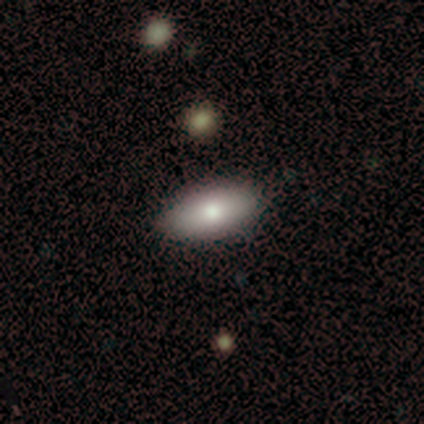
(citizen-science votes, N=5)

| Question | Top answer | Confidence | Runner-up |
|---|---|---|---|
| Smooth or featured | smooth | 80% | featured or disk (20%) |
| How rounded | in between | 100% | — |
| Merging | none | 80% | merger (20%) |